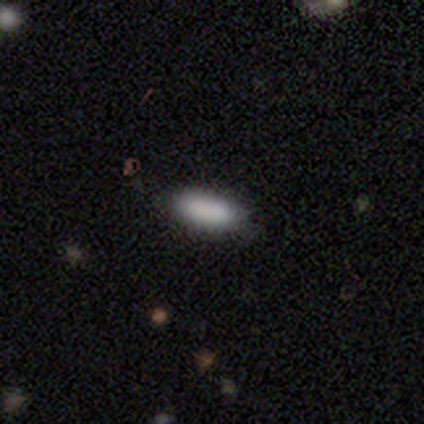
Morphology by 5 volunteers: Q: Smooth or featured?
A: smooth (100%)
Q: How rounded?
A: in between (60%); runner-up: cigar-shaped (40%)
Q: Merging?
A: none (80%); runner-up: minor disturbance (20%)